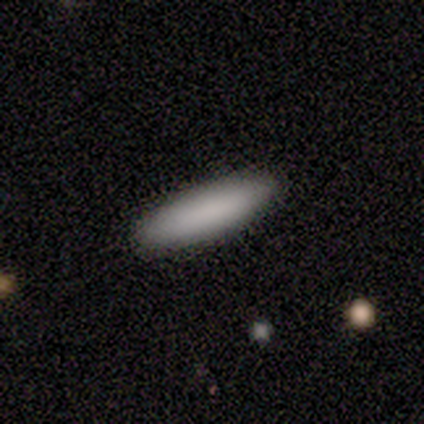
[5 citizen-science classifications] Smooth or featured? 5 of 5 (100%) said smooth. How rounded? 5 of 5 (100%) said cigar-shaped. Merging? 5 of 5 (100%) said none.